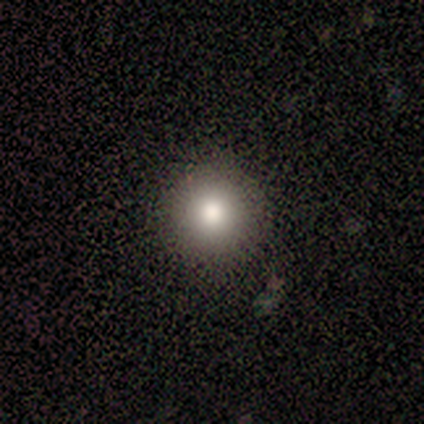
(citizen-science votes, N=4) smooth 75%, star or artifact 25%, featured or disk 0%. Down the decision tree: how rounded — round (100%); merging — none (100%).